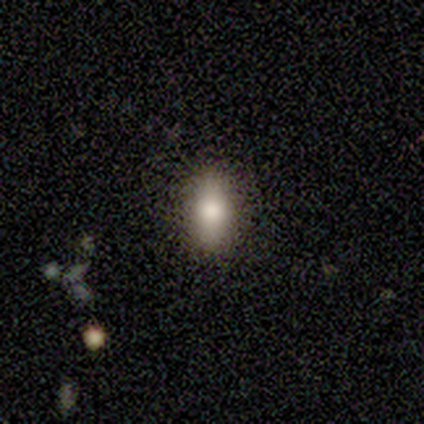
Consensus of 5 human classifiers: Smooth or featured?
  - smooth: 60% *
  - star or artifact: 40%
  - featured or disk: 0%
How rounded?
  - in between: 67% *
  - cigar-shaped: 33%
  - round: 0%
Merging?
  - minor disturbance: 67% *
  - none: 33%
  - major disturbance: 0%
  - merger: 0%